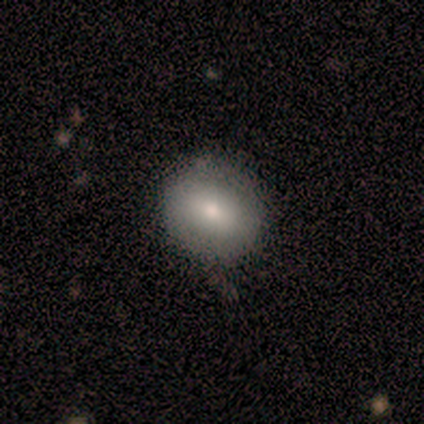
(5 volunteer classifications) Q: Smooth or featured?
A: smooth (80%); runner-up: featured or disk (20%)
Q: How rounded?
A: round (75%); runner-up: in between (25%)
Q: Merging?
A: none (60%); runner-up: minor disturbance (40%)